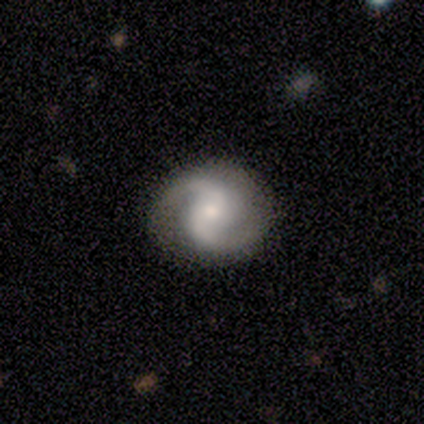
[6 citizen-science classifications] Smooth or featured: featured or disk — 83% (smooth — 17%)
Edge-on disk: no — 100%
Bar: no — 60% (weak — 40%)
Spiral arms: yes — 100%
Spiral winding: medium — 60% (tight — 20%)
Spiral arm count: 2 — 100%
Bulge size: small — 60% (large — 20%)
Merging: none — 83% (minor disturbance — 17%)